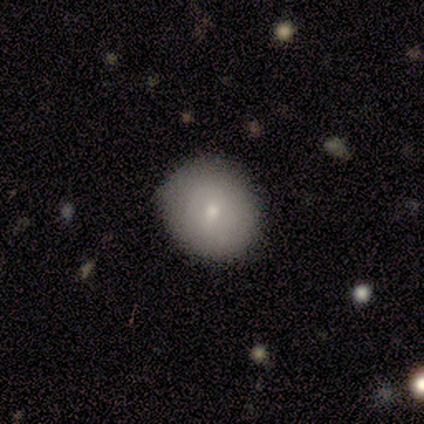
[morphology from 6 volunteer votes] A smooth galaxy with no disk features (67%) that is round (75%).

Vote fractions:
- Smooth or featured? smooth: 67% / featured or disk: 17% / star or artifact: 17%
- How rounded? round: 75% / in between: 25% / cigar-shaped: 0%
- Merging? none: 100% / minor disturbance: 0% / major disturbance: 0% / merger: 0%